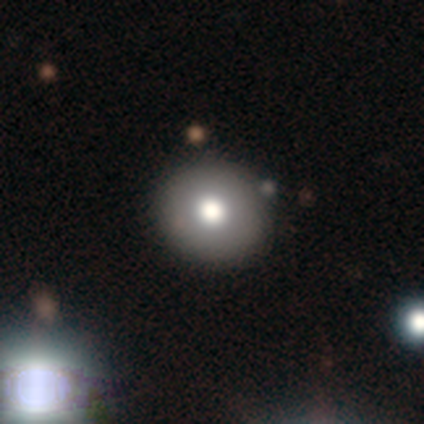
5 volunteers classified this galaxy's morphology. Smooth or featured? smooth (60%)
How rounded? round (100%)
Merging? none (100%)